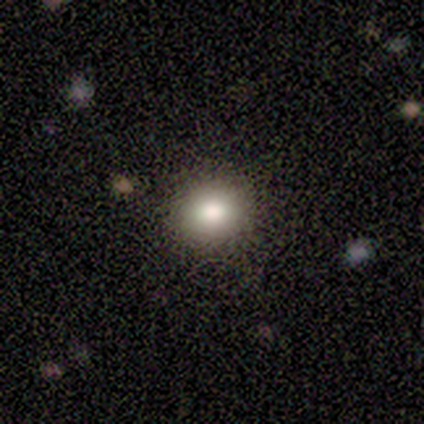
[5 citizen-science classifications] smooth_or_featured: smooth (p=1.00)
how_rounded: round (p=0.80) [alt: in between p=0.20]
merging: none (p=0.80) [alt: minor disturbance p=0.20]